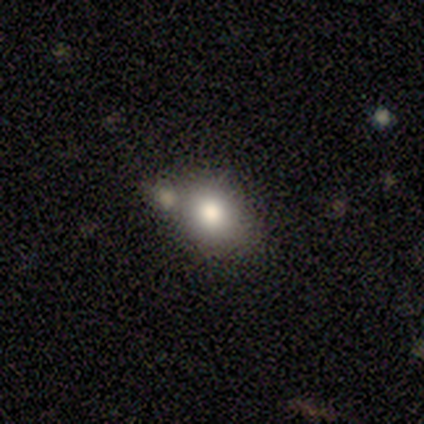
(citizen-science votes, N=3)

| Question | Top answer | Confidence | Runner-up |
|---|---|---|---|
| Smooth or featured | smooth | 100% | — |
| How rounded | in between | 67% | round (33%) |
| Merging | none | 67% | minor disturbance (33%) |